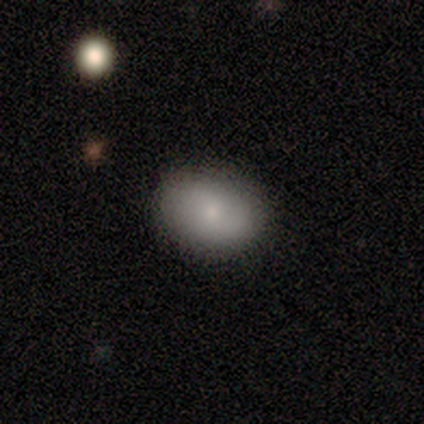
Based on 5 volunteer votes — A smooth galaxy with no disk features (80%) that is in between round and cigar-shaped (75%). Merging: none (75%).